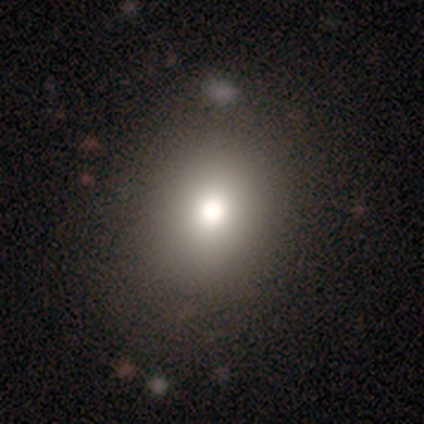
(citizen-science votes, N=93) Smooth or featured?
  - smooth: 76% *
  - star or artifact: 16%
  - featured or disk: 8%
How rounded?
  - round: 79% *
  - in between: 21%
  - cigar-shaped: 0%
Merging?
  - none: 85% *
  - minor disturbance: 8%
  - major disturbance: 6%
  - merger: 1%